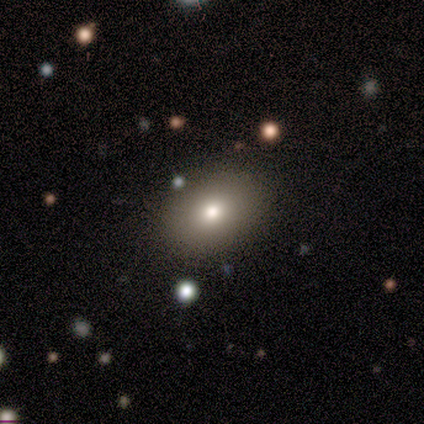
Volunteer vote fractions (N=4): This appears to be a smooth galaxy with no disk features (75%) that is in between round and cigar-shaped (100%). Merging: none (100%).